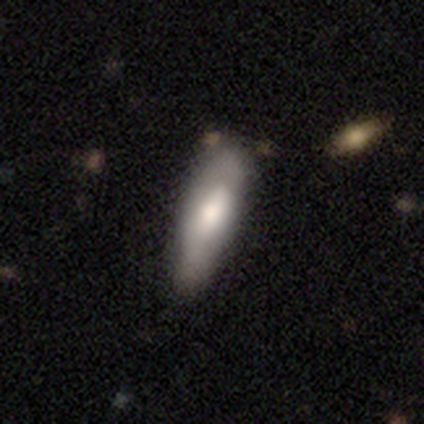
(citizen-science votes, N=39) Smooth or featured?
  - smooth: 59% *
  - featured or disk: 38%
  - star or artifact: 3%
How rounded?
  - in between: 57% *
  - cigar-shaped: 43%
  - round: 0%
Merging?
  - none: 37% *
  - minor disturbance: 16%
  - major disturbance: 8%
  - merger: 5%